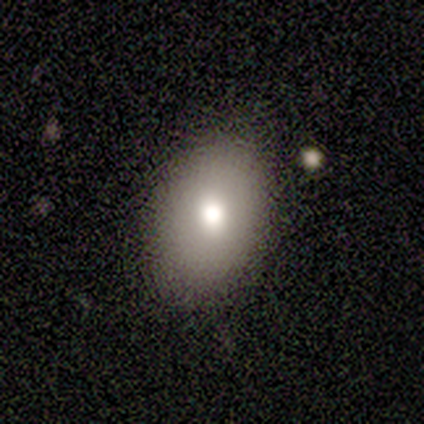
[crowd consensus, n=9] Volunteers were most divided on "smooth or featured": smooth: 78%, featured or disk: 11%, star or artifact: 11%. More confident: merging — none (100%); how rounded — in between (86%).